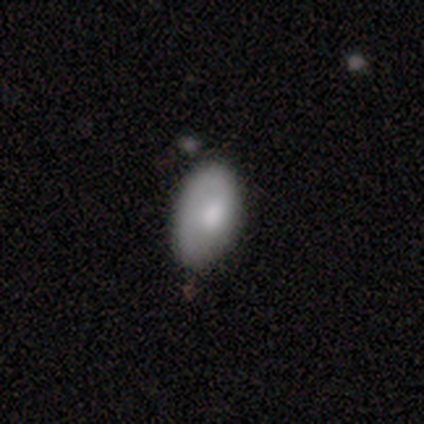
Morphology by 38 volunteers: This is likely a smooth galaxy (63%). How rounded: clearly in between (96%). Merging: likely none (63%).